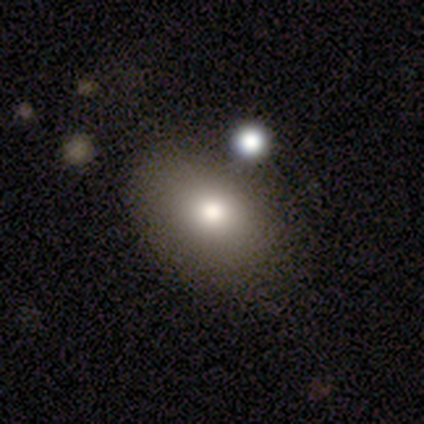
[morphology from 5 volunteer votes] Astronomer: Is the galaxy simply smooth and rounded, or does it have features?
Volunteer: smooth — 60% (runner-up: star or artifact, 40%).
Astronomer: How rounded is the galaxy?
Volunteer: in between — 100%.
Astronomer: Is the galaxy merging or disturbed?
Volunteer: merger — 67%.